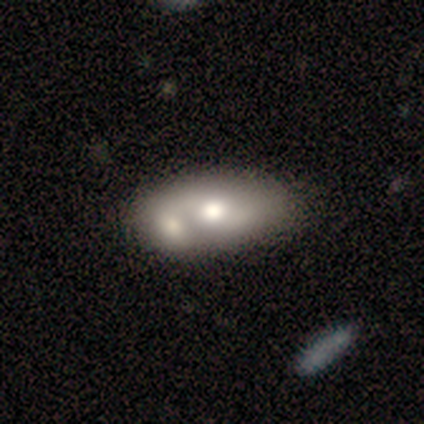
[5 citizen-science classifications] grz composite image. It shows a featured or disk galaxy (100%) with a strong bar (40%, tied with no), 2 (67%) loose (67%) spiral arms (60%) and a moderate central bulge (100%). Merging: merger (60%).